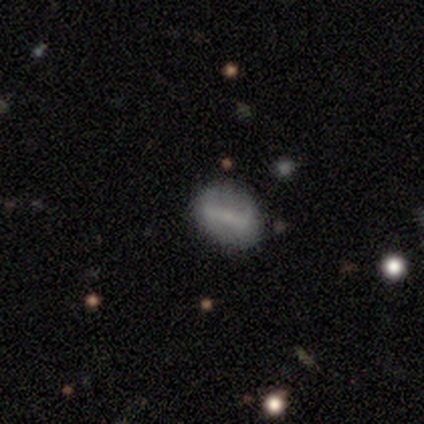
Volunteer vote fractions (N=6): smooth 50%, featured or disk 33%, star or artifact 17%. Down the decision tree: how rounded — round (67%); merging — none (100%).